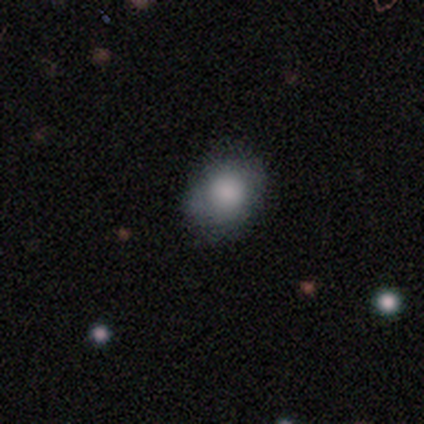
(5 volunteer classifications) Smooth or featured? 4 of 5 (80%) said smooth. How rounded? 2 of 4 (50%, tied with in between) said round. Merging? 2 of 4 (50%, tied with minor disturbance) said none.